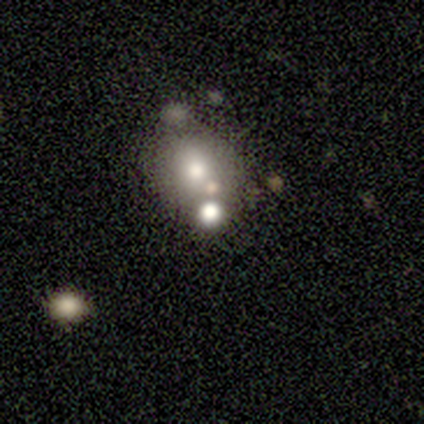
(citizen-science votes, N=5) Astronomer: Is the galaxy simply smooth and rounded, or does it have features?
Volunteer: smooth — 80%.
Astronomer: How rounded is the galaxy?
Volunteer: in between — 75%.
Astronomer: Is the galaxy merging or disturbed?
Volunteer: none — 50%, tied with merger at 50%.